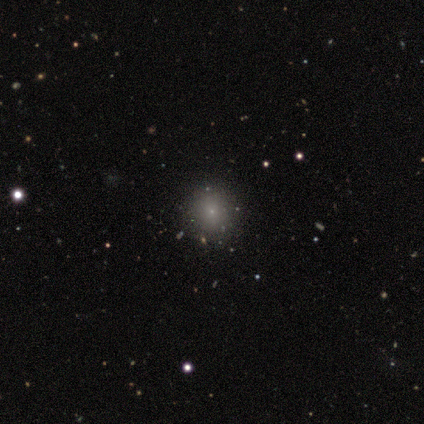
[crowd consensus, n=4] smooth-or-featured: smooth: 50% (tied) | star or artifact: 50% (tied) | featured or disk: 0%
  how-rounded: round: 100% | in between: 0% | cigar-shaped: 0%
  merging: none: 100% | minor disturbance: 0% | major disturbance: 0% | merger: 0%